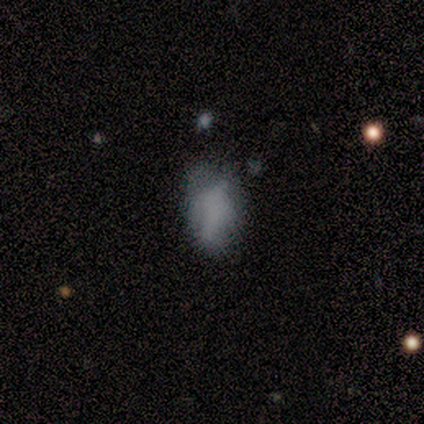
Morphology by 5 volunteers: A smooth galaxy with no disk features (40%, tied with star or artifact) that is in between round and cigar-shaped (50%, tied with cigar-shaped).

Vote fractions:
- Smooth or featured? smooth: 40% (tied) / star or artifact: 40% (tied) / featured or disk: 20%
- How rounded? in between: 50% (tied) / cigar-shaped: 50% (tied) / round: 0%
- Merging? major disturbance: 67% / none: 33% / minor disturbance: 0% / merger: 0%